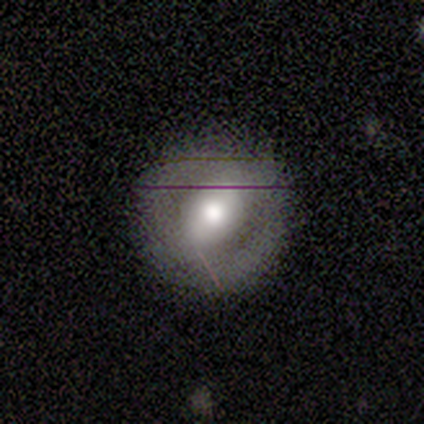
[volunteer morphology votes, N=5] smooth_or_featured: featured or disk (p=0.60) [alt: smooth p=0.40]
disk_edge_on: no (p=1.00)
bar: strong (p=0.67) [alt: no p=0.33]
has_spiral_arms: no (p=0.67) [alt: yes p=0.33]
bulge_size: moderate (p=1.00)
merging: none (p=1.00)